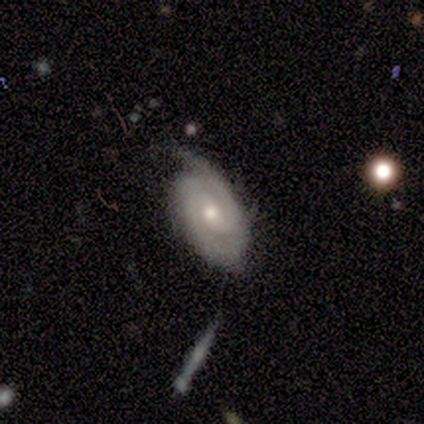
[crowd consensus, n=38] Smooth or featured?
  - featured or disk: 66% *
  - smooth: 24%
  - star or artifact: 11%
Edge-on disk?
  - no: 88% *
  - yes: 12%
Bar?
  - no: 73% *
  - weak: 23%
  - strong: 5%
Spiral arms?
  - yes: 95% *
  - no: 5%
Spiral winding?
  - tight: 71% *
  - medium: 24%
  - loose: 5%
Spiral arm count?
  - 2: 48% *
  - can't tell: 24%
  - 1: 10%
  - 3: 10%
  - 4: 10%
  - more than 4: 0%
Bulge size?
  - moderate: 50% *
  - small: 45%
  - large: 5%
  - dominant: 0%
  - none: 0%
Merging?
  - none: 62% *
  - minor disturbance: 29%
  - merger: 6%
  - major disturbance: 3%